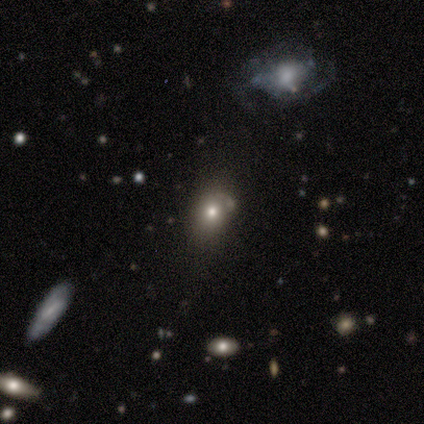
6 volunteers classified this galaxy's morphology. Smooth or featured? 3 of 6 (50%) said star or artifact.